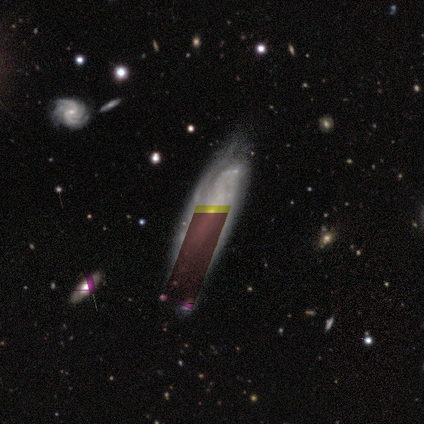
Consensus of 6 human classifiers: Volunteers were most divided on "bar" (2-way tie): weak: 50%, no: 50%, strong: 0%. More confident: edge-on disk — no (100%); spiral arms — yes (100%); merging — none (100%); bulge size — small (75%); smooth or featured — featured or disk (67%); spiral winding — medium (50%); spiral arm count — can't tell (50%).